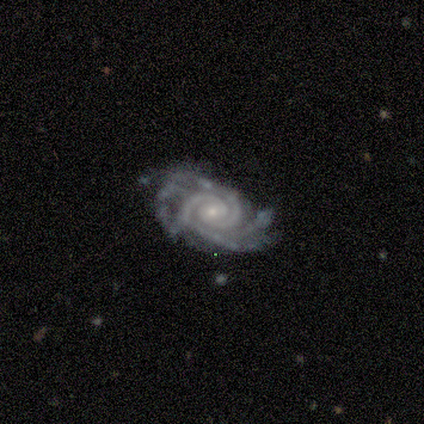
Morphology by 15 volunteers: featured or disk 93%, smooth 7%, star or artifact 0%. Down the decision tree: edge-on disk — no (86%); bar — no (100%); spiral arms — yes (100%); spiral arm count — 2 (33%, tied with 3); spiral winding — tight (100%); bulge size — small (67%); merging — none (53%).